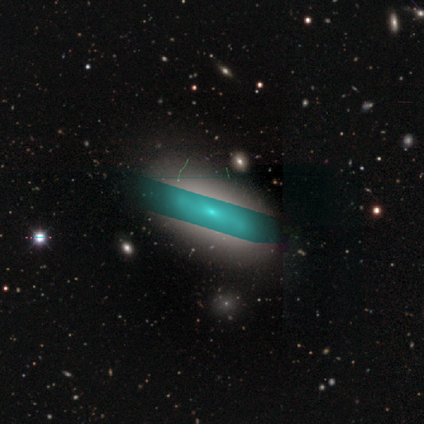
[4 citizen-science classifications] A smooth galaxy with no disk features (50%) that is in between round and cigar-shaped (100%).

Vote fractions:
- Smooth or featured? smooth: 50% / featured or disk: 25% / star or artifact: 25%
- How rounded? in between: 100% / round: 0% / cigar-shaped: 0%
- Merging? none: 33% (tied) / minor disturbance: 33% (tied) / major disturbance: 33% (tied) / merger: 0%